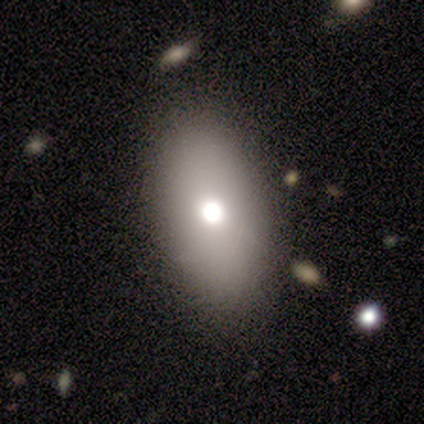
Overall: smooth (80%). How rounded: in between (75%). Merging: none (100%).